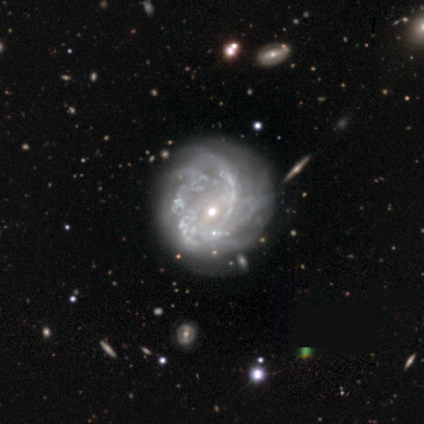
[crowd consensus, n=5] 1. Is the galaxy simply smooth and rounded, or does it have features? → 60% featured or disk, 20% smooth, 20% star or artifact.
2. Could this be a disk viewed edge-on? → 100% no, 0% yes.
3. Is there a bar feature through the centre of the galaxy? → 100% no, 0% strong, 0% weak.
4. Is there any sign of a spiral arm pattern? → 100% yes, 0% no.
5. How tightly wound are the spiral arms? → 33% tight (tied), 33% medium (tied), 33% loose (tied).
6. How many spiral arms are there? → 33% 2 (tied), 33% 4 (tied), 33% can't tell (tied), 0% 1, 0% 3, 0% more than 4.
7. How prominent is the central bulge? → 67% moderate, 33% small, 0% dominant, 0% large, 0% none.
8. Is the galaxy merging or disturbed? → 75% none, 25% merger, 0% minor disturbance, 0% major disturbance.